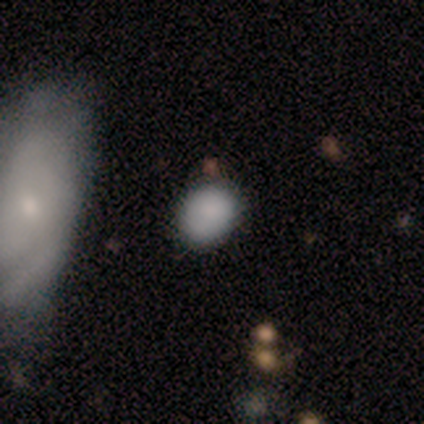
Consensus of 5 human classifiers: smooth 100%, featured or disk 0%, star or artifact 0%. Down the decision tree: how rounded — in between (60%); merging — none (60%).